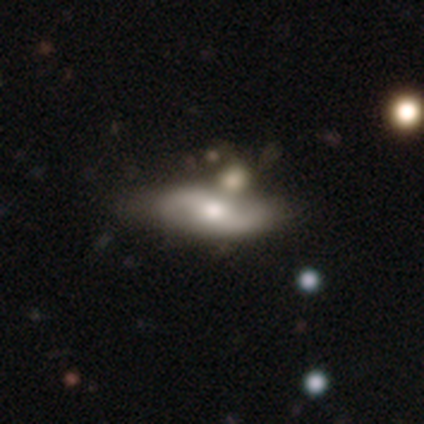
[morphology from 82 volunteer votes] Q: Smooth or featured?
A: featured or disk (67%); runner-up: smooth (26%)
Q: Edge-on disk?
A: no (91%); runner-up: yes (9%)
Q: Bar?
A: no (40%); runner-up: weak (32%)
Q: Spiral arms?
A: yes (90%); runner-up: no (10%)
Q: Spiral winding?
A: loose (67%); runner-up: medium (24%)
Q: Spiral arm count?
A: 2 (96%); runner-up: can't tell (4%)
Q: Bulge size?
A: moderate (64%); runner-up: large (20%)
Q: Merging?
A: none (45%); runner-up: minor disturbance (30%)